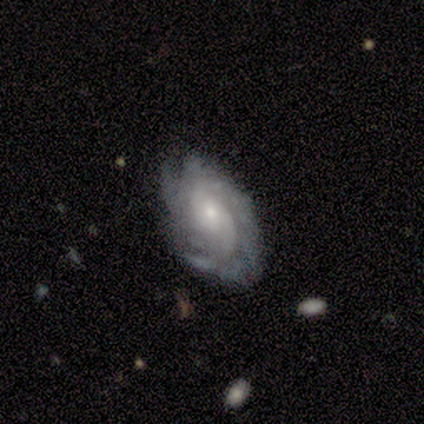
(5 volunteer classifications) A featured or disk galaxy (80%) with no bar (75%), 2 (50%) tight (75%) spiral arms (100%) and a small central bulge (100%).

Vote fractions:
- Smooth or featured? featured or disk: 80% / smooth: 20% / star or artifact: 0%
- Edge-on disk? no: 100% / yes: 0%
- Bar? no: 75% / weak: 25% / strong: 0%
- Spiral arms? yes: 100% / no: 0%
- Spiral winding? tight: 75% / medium: 25% / loose: 0%
- Spiral arm count? 2: 50% / 3: 25% / more than 4: 25% / 1: 0% / 4: 0% / can't tell: 0%
- Bulge size? small: 100% / dominant: 0% / large: 0% / moderate: 0% / none: 0%
- Merging? none: 60% / minor disturbance: 20% / major disturbance: 20% / merger: 0%